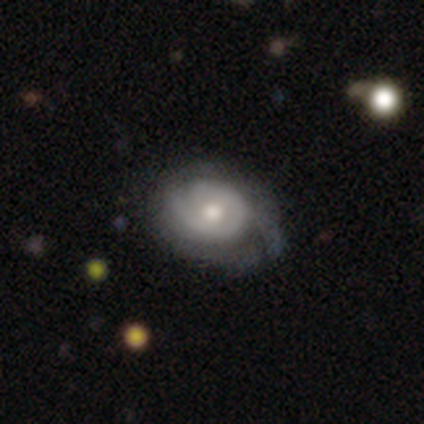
Smooth or featured? 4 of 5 (80%) said featured or disk. Edge-on disk? 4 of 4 (100%) said no. Bar? 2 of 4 (50%) said no. Spiral arms? 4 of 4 (100%) said yes. Spiral winding? 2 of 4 (50%, tied with medium) said tight. Spiral arm count? 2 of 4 (50%) said can't tell. Bulge size? 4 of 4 (100%) said moderate. Merging? 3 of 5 (60%) said major disturbance.